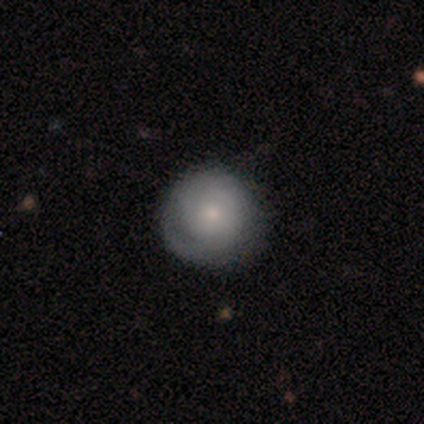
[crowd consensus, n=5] smooth 60%, featured or disk 20%, star or artifact 20%. Down the decision tree: how rounded — round (100%); merging — none (100%).